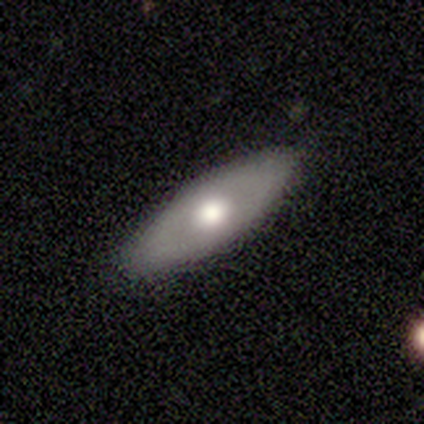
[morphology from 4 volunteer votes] Overall: featured or disk (75%). Edge-on disk: no (67%; yes 33%). Bar: strong (50%, tied with no). Spiral arms: no (100%). Bulge size: dominant (50%, tied with moderate). Merging: none (100%).